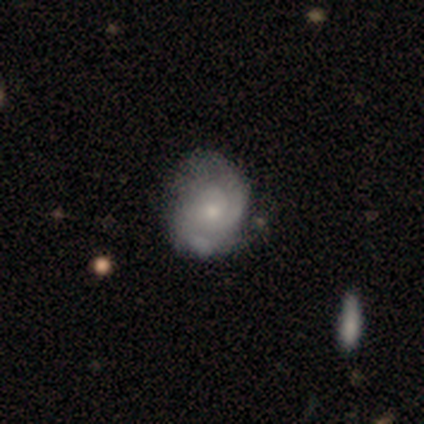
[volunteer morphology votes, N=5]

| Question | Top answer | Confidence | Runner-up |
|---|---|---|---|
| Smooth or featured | featured or disk | 80% | smooth (20%) |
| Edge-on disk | no | 100% | — |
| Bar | no | 100% | — |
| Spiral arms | yes | 75% | no (25%) |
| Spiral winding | tight | 100% | — |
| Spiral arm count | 2 | 100% | — |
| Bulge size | moderate | 75% | small (25%) |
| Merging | none | 60% | major disturbance (40%) |